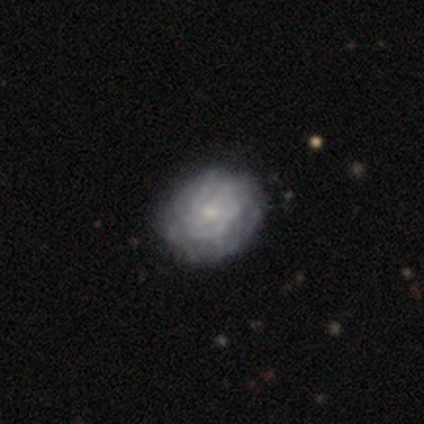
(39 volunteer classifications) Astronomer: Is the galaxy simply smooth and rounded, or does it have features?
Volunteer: featured or disk — 82%.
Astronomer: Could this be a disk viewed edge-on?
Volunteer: no — 100%.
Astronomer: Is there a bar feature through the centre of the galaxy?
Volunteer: no — 81%.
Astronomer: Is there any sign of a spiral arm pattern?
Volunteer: yes — 81%.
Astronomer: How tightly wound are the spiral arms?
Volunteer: tight — 81%.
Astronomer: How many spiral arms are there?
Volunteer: can't tell — 54%.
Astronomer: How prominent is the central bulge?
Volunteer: small — 72%.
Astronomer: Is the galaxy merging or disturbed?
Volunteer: none — 49%.